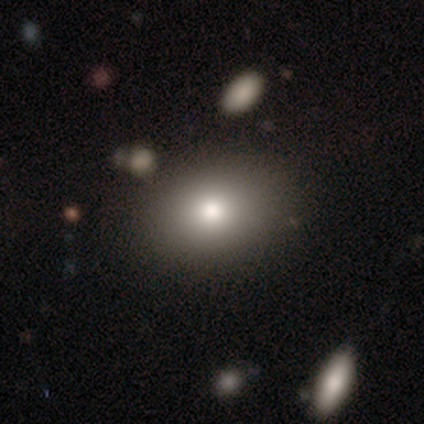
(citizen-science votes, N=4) smooth-or-featured: smooth: 75% | featured or disk: 25% | star or artifact: 0%
  how-rounded: in between: 67% | round: 33% | cigar-shaped: 0%
  merging: none: 50% | minor disturbance: 25% | merger: 25% | major disturbance: 0%